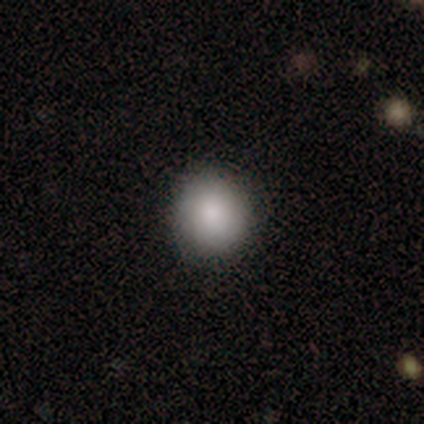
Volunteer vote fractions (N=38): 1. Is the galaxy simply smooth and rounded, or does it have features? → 79% smooth, 11% featured or disk, 11% star or artifact.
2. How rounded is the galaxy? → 83% round, 17% in between, 0% cigar-shaped.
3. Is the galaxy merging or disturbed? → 94% none, 6% minor disturbance, 0% major disturbance, 0% merger.